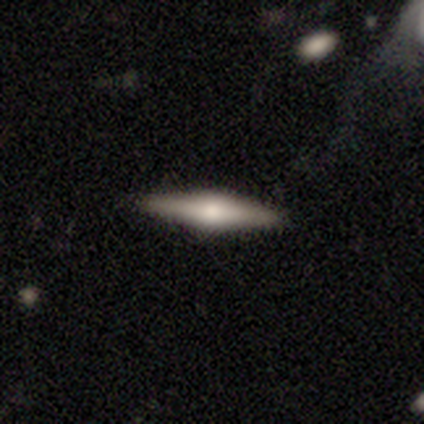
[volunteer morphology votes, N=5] Smooth or featured? featured or disk (80%)
Edge-on disk? yes (100%)
Edge-on bulge? rounded (100%)
Merging? none (100%)